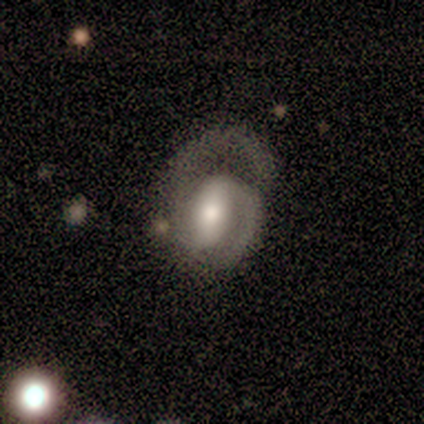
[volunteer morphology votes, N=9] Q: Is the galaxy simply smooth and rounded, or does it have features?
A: featured or disk — 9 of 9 (100%).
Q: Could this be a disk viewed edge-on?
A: no — 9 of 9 (100%).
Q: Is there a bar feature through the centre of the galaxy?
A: strong — 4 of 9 (44%, tied with weak).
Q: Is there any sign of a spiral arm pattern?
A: yes — 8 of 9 (89%).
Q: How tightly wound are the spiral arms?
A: medium — 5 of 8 (62%).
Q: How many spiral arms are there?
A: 2 — 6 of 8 (75%).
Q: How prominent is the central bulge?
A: large — 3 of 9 (33%, tied with moderate and small).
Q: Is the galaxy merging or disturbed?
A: minor disturbance — 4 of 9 (44%).